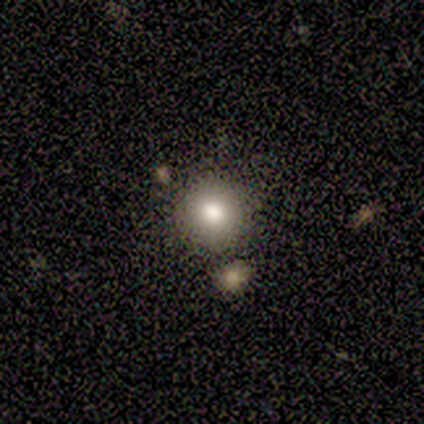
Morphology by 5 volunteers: A smooth galaxy with no disk features (100%) that is round (100%). Merging: none (100%).